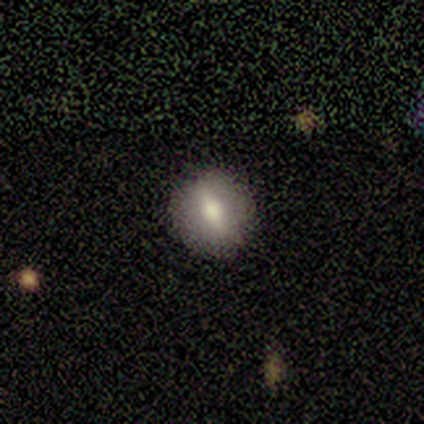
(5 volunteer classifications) This is likely a smooth galaxy (60%). How rounded: clearly round (100%). Merging: likely none (60%).